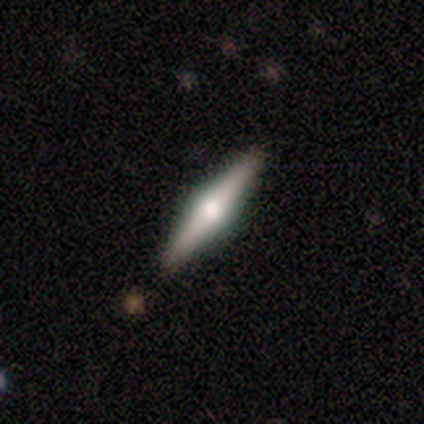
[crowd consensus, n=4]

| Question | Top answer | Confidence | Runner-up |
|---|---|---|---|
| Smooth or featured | smooth | 50% | tied: featured or disk (50%) |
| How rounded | in between | 50% | tied: cigar-shaped (50%) |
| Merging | none | 100% | — |